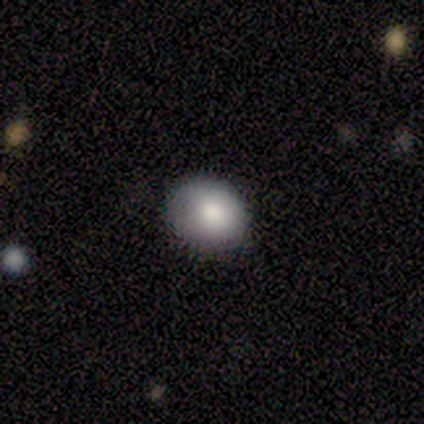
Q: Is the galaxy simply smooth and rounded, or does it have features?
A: smooth — 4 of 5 (80%).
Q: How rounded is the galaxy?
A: round — 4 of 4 (100%).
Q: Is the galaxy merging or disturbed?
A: none — 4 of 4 (100%).